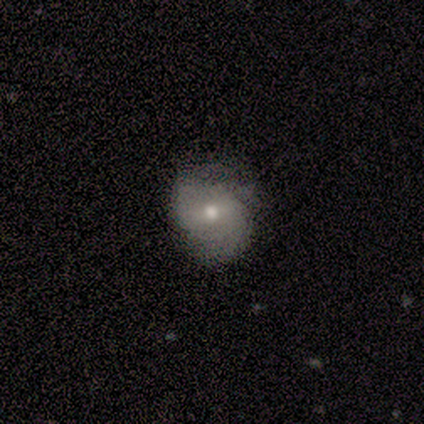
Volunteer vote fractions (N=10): This appears to be a featured or disk galaxy (60%) with a weak bar (67%), 2 (80%) medium (40%, tied with loose) spiral arms (83%) and a moderate central bulge (67%). Merging: none (78%).